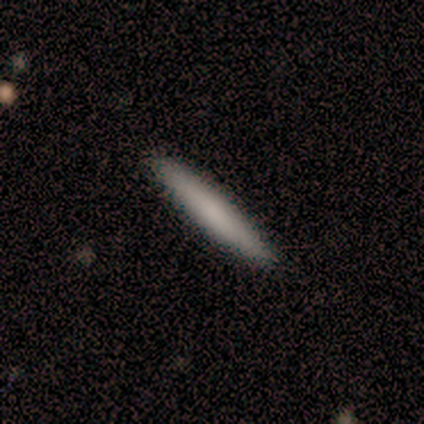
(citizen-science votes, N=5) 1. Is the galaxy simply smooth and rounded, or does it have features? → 80% smooth, 20% featured or disk, 0% star or artifact.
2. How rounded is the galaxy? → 100% cigar-shaped, 0% round, 0% in between.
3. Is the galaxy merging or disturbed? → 80% none, 20% minor disturbance, 0% major disturbance, 0% merger.